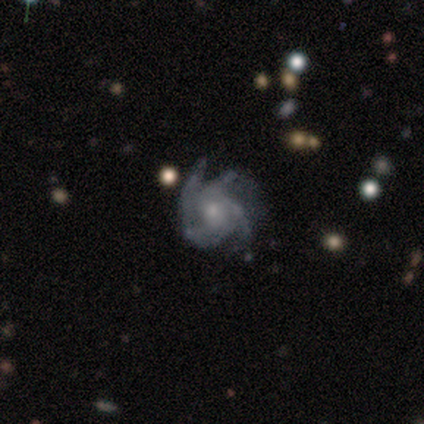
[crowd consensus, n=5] This is clearly a featured or disk galaxy (100%). It is clearly not viewed edge-on (100%). Bar: clearly no (80%). Spiral arm pattern: clearly yes (100%). Spiral arm count: clearly 3 (80%). Spiral winding: likely medium (60%). Central bulge: likely moderate (60%). Merging: clearly none (80%).